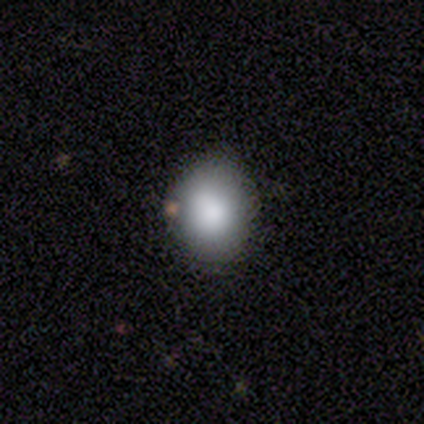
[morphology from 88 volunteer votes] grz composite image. It shows a smooth galaxy with no disk features (85%) that is round (56%). Merging: none (77%).